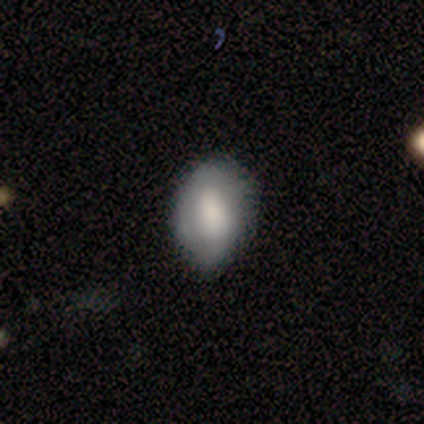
Smooth or featured? smooth (100%)
How rounded? in between (100%)
Merging? none (50%, tied with minor disturbance)